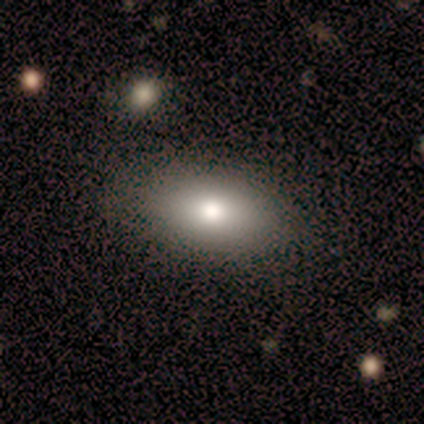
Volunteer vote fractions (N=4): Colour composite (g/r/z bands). It shows a smooth galaxy with no disk features (50%, tied with featured or disk) that is in between round and cigar-shaped (100%). Merging: none (75%).